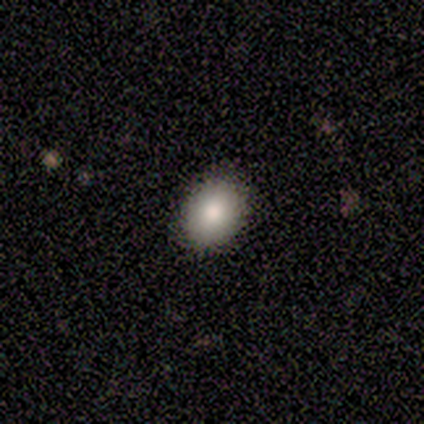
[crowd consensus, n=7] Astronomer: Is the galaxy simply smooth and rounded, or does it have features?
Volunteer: smooth — 100%.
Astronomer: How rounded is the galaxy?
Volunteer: in between — 100%.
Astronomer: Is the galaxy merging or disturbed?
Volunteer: none — 100%.